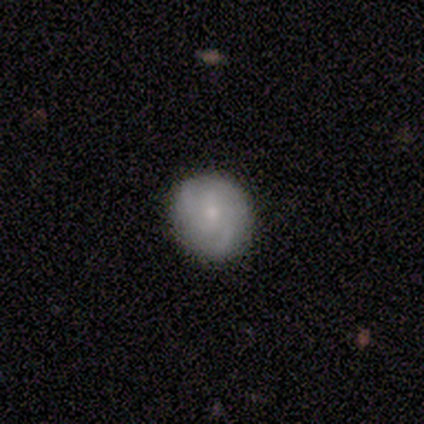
A featured or disk galaxy (60%) with no bar (100%), 3 (67%) medium (67%) spiral arms (100%) and a small central bulge (67%). Merging: none (100%).